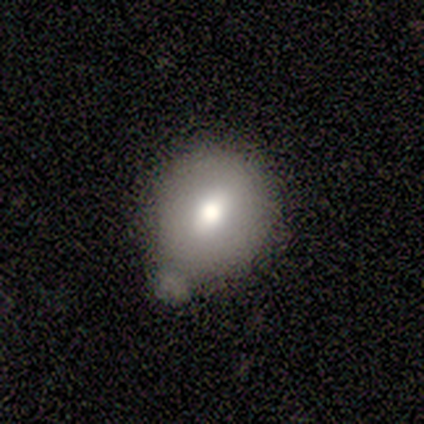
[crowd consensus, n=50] Morphology: type=smooth (66%); roundness=round (79%); merging=minor disturbance (41%).